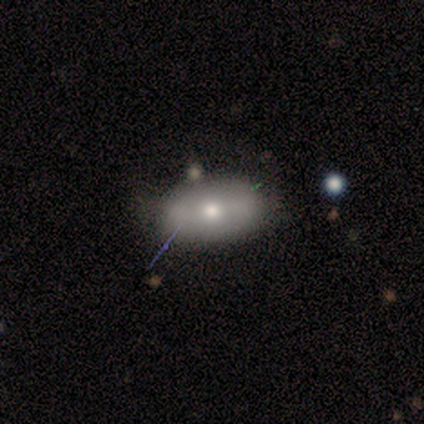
Smooth or featured?
  - smooth: 69% *
  - featured or disk: 23%
  - star or artifact: 8%
How rounded?
  - in between: 100% *
  - round: 0%
  - cigar-shaped: 0%
Merging?
  - none: 67% *
  - minor disturbance: 33%
  - major disturbance: 0%
  - merger: 0%